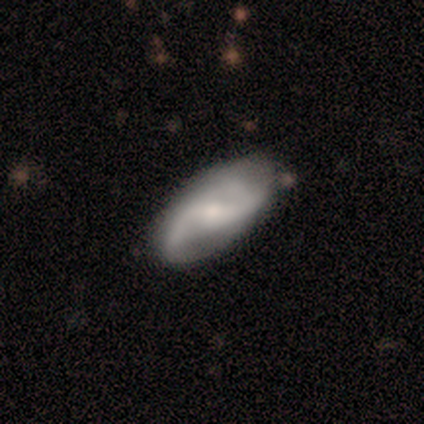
Volunteers were most divided on "bulge size": moderate: 50%, large: 25%, small: 25%, dominant: 0%, none: 0%. More confident: edge-on disk — no (100%); spiral arms — yes (100%); spiral arm count — 2 (100%); smooth or featured — featured or disk (80%); merging — none (80%); bar — weak (75%); spiral winding — medium (75%).